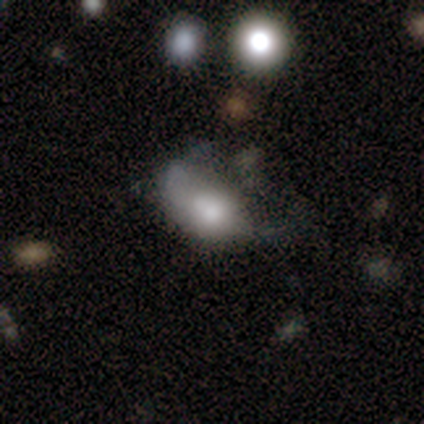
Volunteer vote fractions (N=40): A smooth galaxy with no disk features (68%) that is in between round and cigar-shaped (89%). Merging: none (29%, tied with minor disturbance and major disturbance).